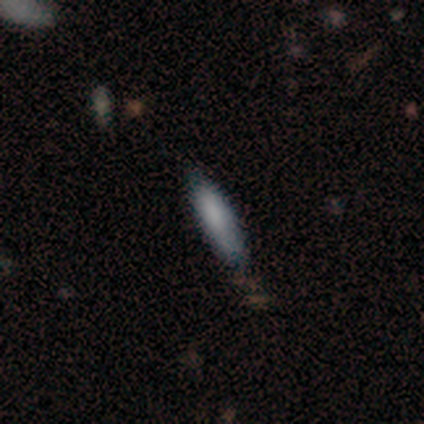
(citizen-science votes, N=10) Q: Smooth or featured?
A: smooth (100%)
Q: How rounded?
A: cigar-shaped (70%); runner-up: in between (30%)
Q: Merging?
A: minor disturbance (50%); runner-up: none (40%)